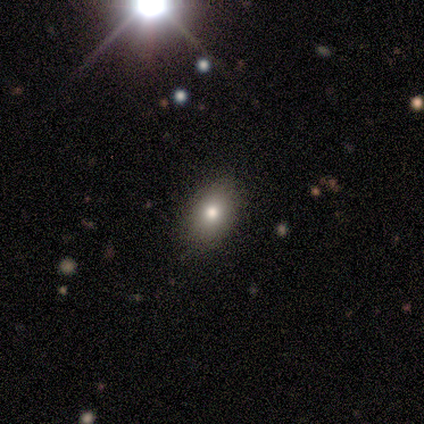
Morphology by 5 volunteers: Overall: star or artifact (60%; smooth 20%).